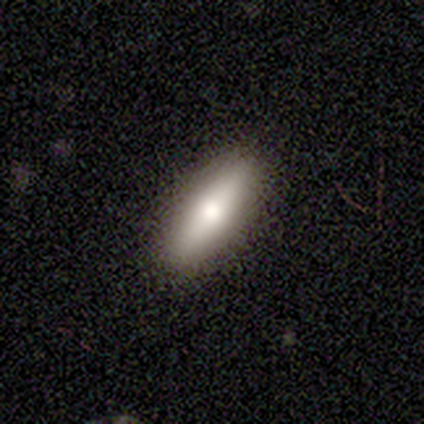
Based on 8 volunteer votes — Smooth or featured: smooth — 62% (featured or disk — 38%)
How rounded: in between — 80% (cigar-shaped — 20%)
Merging: none — 88% (major disturbance — 12%)